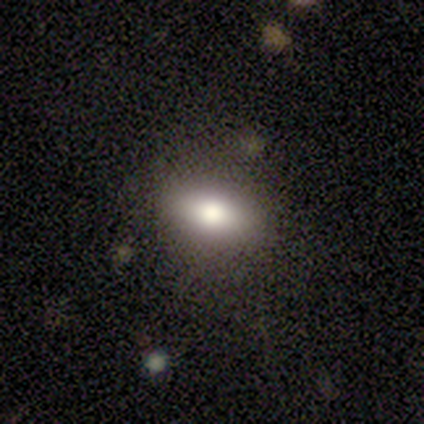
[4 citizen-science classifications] Smooth or featured? 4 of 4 (100%) said smooth. How rounded? 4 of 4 (100%) said in between. Merging? 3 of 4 (75%) said none.